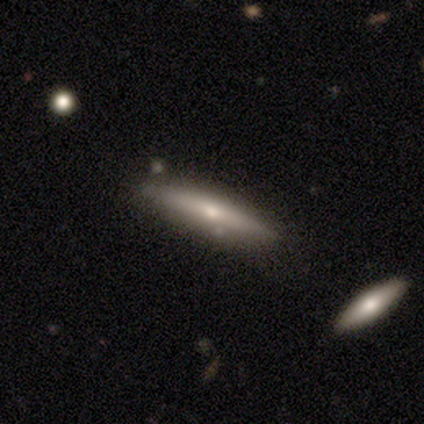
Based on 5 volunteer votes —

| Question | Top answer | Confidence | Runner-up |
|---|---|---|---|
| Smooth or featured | smooth | 60% | featured or disk (40%) |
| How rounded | cigar-shaped | 100% | — |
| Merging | none | 60% | minor disturbance (20%) |